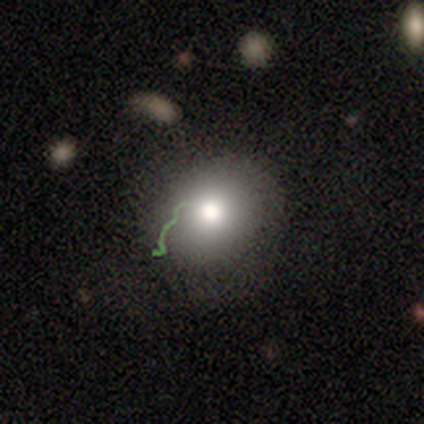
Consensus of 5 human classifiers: Q: Smooth or featured?
A: smooth (60%); runner-up: featured or disk (20%)
Q: How rounded?
A: round (100%)
Q: Merging?
A: none (75%); runner-up: merger (25%)